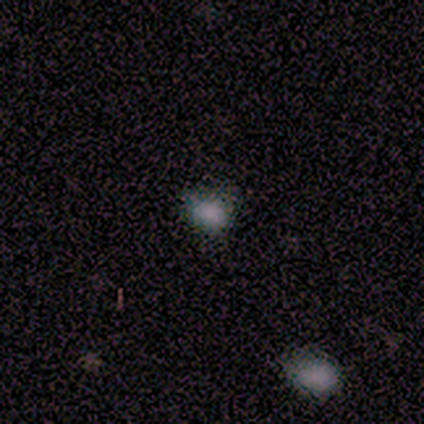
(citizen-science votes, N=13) Smooth or featured: smooth — 69% (featured or disk — 15%)
How rounded: round — 67% (in between — 33%)
Merging: none — 64% (minor disturbance — 36%)